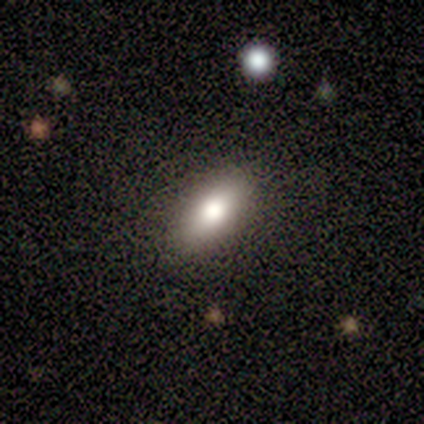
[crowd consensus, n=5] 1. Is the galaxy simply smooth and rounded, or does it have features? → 80% smooth, 20% featured or disk, 0% star or artifact.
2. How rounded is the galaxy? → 75% in between, 25% cigar-shaped, 0% round.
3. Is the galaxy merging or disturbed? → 80% none, 20% minor disturbance, 0% major disturbance, 0% merger.